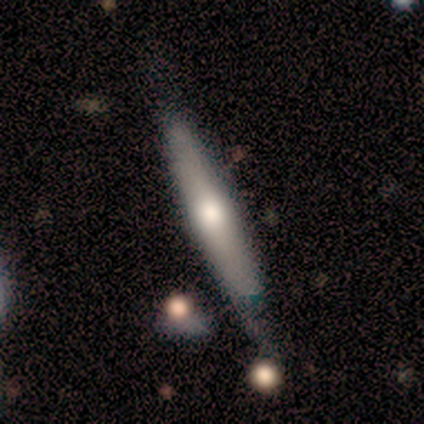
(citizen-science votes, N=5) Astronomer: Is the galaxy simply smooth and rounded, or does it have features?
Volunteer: featured or disk — 60% (runner-up: smooth, 40%).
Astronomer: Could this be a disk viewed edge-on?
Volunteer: yes — 100%.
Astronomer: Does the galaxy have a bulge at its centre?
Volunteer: rounded — 100%.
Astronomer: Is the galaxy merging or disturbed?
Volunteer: minor disturbance — 60% (runner-up: none, 40%).